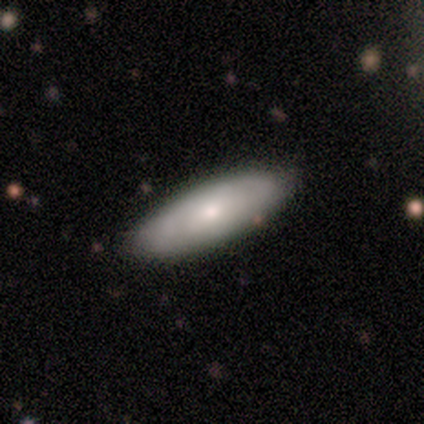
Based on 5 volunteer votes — Q: Smooth or featured?
A: smooth (80%); runner-up: featured or disk (20%)
Q: How rounded?
A: in between (50%); tied with: cigar-shaped (50%)
Q: Merging?
A: none (100%)